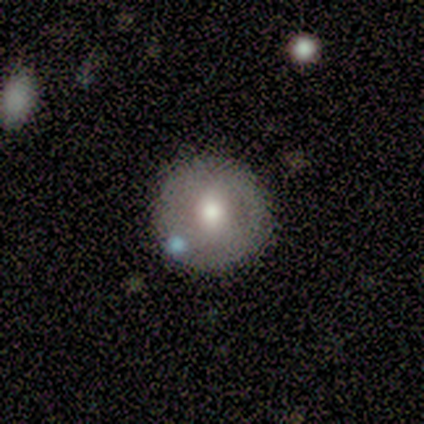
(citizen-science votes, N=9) featured or disk 67%, smooth 33%, star or artifact 0%. Down the decision tree: edge-on disk — no (100%); bar — no (50%); spiral arms — no (67%); bulge size — moderate (67%); merging — none (89%).